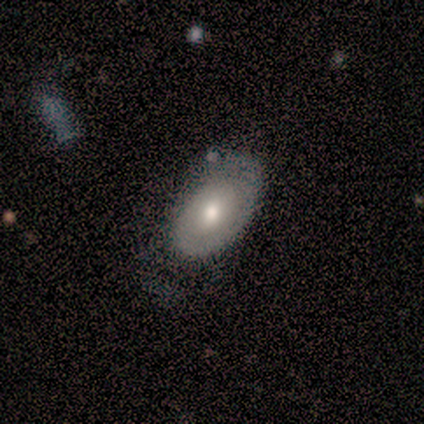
This appears to be a smooth galaxy with no disk features (100%) that is in between round and cigar-shaped (100%). Merging: none (43%).